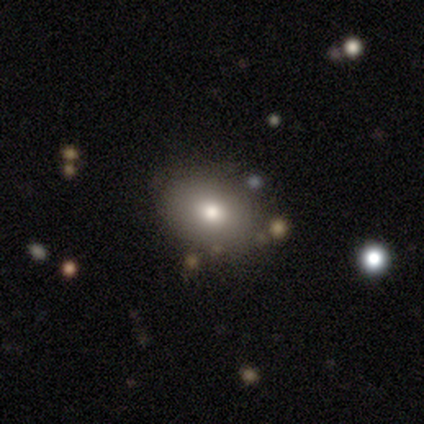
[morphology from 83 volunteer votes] type=smooth (78%); roundness=in between (72%); merging=none (85%).